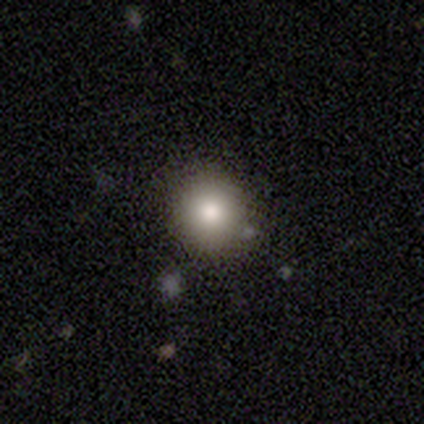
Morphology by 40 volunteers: Overall: smooth (75%). How rounded: round (90%). Merging: none (92%).